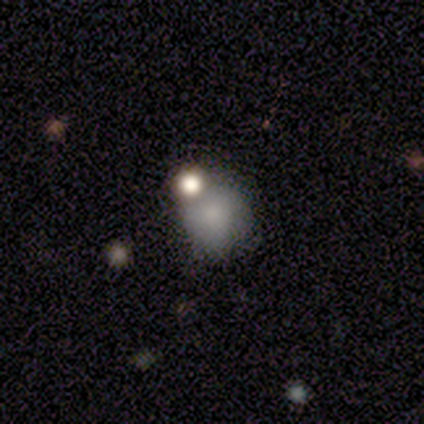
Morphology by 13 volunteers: This appears to be a smooth galaxy with no disk features (100%) that is round (77%). Merging: none (46%).